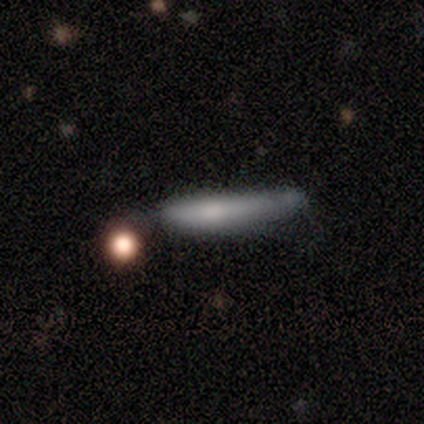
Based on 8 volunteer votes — smooth 62%, featured or disk 38%, star or artifact 0%. Down the decision tree: how rounded — cigar-shaped (100%); merging — minor disturbance (100%).